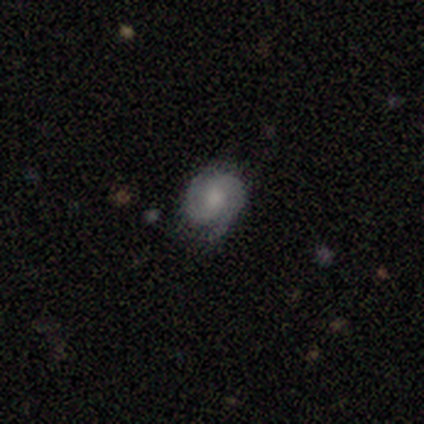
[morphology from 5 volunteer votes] This is clearly a featured or disk galaxy (80%). It is clearly not viewed edge-on (100%). Bar: likely no (75%). Spiral arm pattern: clearly yes (100%). Spiral arm count: possibly 2 (50%, tied with can't tell). Spiral winding: possibly tight (50%, tied with medium). Central bulge: possibly small (50%). Merging: likely none (75%).